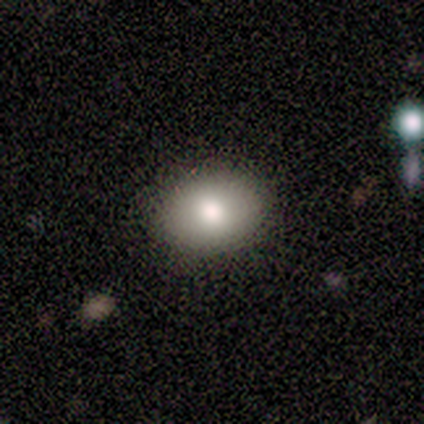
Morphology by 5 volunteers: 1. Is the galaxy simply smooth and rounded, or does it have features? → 80% smooth, 20% star or artifact, 0% featured or disk.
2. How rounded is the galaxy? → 75% in between, 25% round, 0% cigar-shaped.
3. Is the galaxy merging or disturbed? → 100% none, 0% minor disturbance, 0% major disturbance, 0% merger.